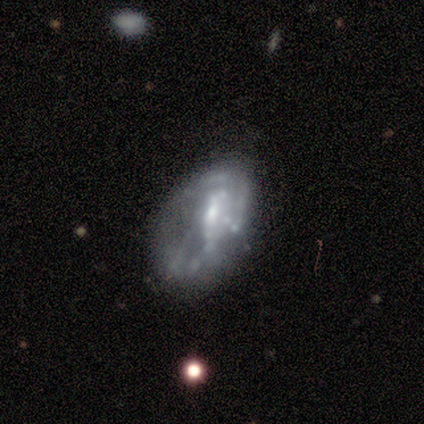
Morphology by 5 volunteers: Smooth or featured?
  - featured or disk: 80% *
  - star or artifact: 20%
  - smooth: 0%
Edge-on disk?
  - no: 100% *
  - yes: 0%
Bar?
  - strong: 50% *
  - weak: 25%
  - no: 25%
Spiral arms?
  - no: 75% *
  - yes: 25%
Bulge size?
  - moderate: 50% *
  - small: 25%
  - none: 25%
  - dominant: 0%
  - large: 0%
Merging?
  - none: 50% *
  - major disturbance: 25%
  - merger: 25%
  - minor disturbance: 0%